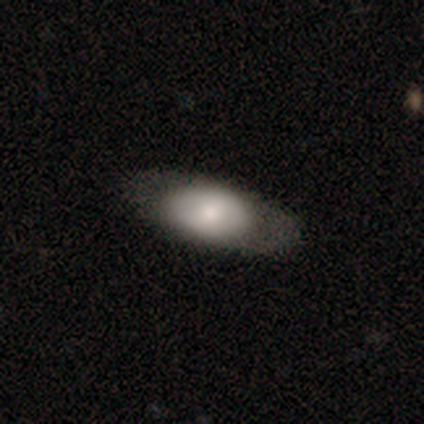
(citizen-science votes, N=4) A smooth galaxy with no disk features (75%) that is in between round and cigar-shaped (100%). Merging: none (100%).